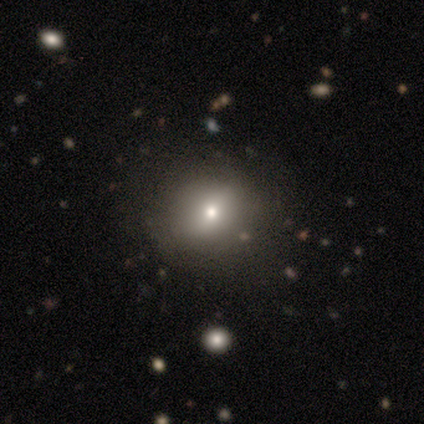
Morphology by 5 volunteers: This is likely a smooth galaxy (60%). How rounded: likely in between (67%). Merging: likely none (75%).